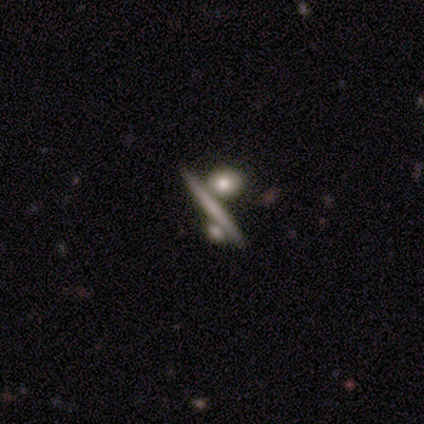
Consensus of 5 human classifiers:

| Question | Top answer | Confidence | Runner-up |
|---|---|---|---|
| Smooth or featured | featured or disk | 80% | smooth (20%) |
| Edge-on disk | yes | 100% | — |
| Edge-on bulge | none | 75% | rounded (25%) |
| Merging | none | 80% | merger (20%) |